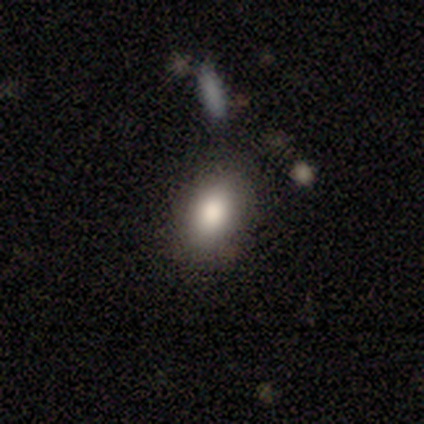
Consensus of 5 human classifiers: smooth 80%, featured or disk 20%, star or artifact 0%. Down the decision tree: how rounded — round (50%, tied with in between); merging — none (80%).